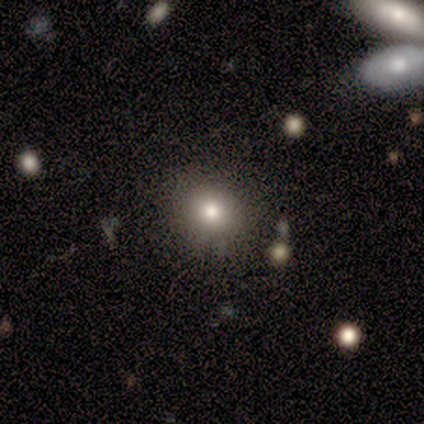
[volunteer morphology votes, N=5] type=smooth (80%); roundness=round (100%); merging=none (100%).